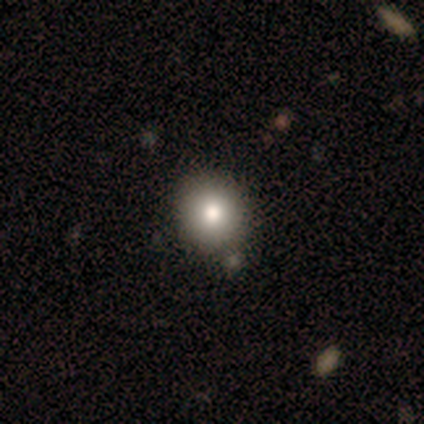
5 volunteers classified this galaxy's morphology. smooth_or_featured: smooth (p=0.60) [alt: featured or disk p=0.40]
how_rounded: round (p=0.67) [alt: in between p=0.33]
merging: none (p=0.80) [alt: minor disturbance p=0.20]